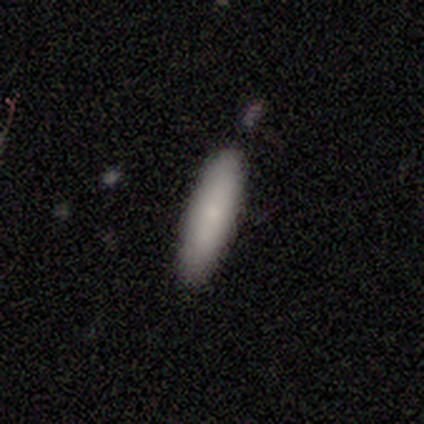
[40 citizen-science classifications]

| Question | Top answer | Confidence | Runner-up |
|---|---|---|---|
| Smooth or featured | smooth | 80% | featured or disk (15%) |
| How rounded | cigar-shaped | 66% | in between (31%) |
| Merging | none | 55% | minor disturbance (5%) |